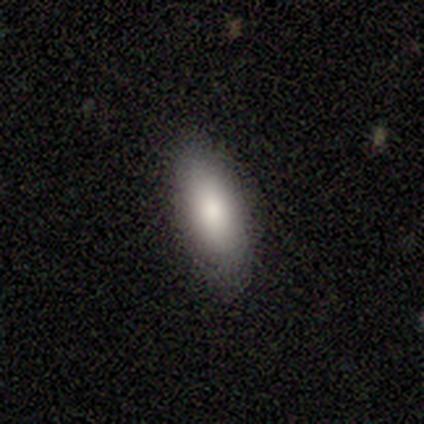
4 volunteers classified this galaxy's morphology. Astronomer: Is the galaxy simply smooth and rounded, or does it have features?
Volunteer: smooth — 75%.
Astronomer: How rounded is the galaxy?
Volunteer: in between — 100%.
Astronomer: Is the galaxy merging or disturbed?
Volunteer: none — 75%.